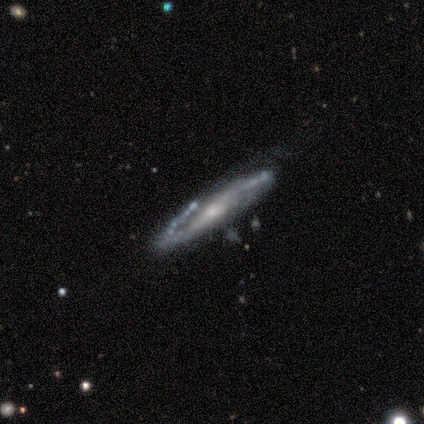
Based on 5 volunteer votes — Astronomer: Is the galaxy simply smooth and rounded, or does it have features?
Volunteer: featured or disk — 100%.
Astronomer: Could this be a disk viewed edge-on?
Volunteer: no — 100%.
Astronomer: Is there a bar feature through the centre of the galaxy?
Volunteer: weak — 60% (runner-up: no, 40%).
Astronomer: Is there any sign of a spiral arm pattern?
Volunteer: yes — 100%.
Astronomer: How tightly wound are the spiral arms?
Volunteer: loose — 60% (runner-up: medium, 40%).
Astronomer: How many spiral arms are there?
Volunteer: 2 — 40% (runner-up: 3, 20%).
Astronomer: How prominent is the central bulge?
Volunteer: small — 100%.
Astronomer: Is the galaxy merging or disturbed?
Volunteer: none — 100%.